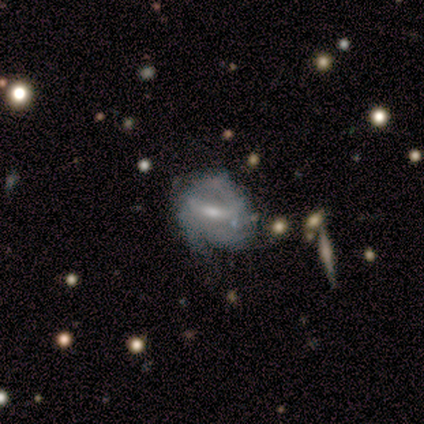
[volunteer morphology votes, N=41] Smooth or featured: featured or disk — 73% (star or artifact — 15%)
Edge-on disk: no — 93% (yes — 7%)
Bar: weak — 61% (strong — 32%)
Spiral arms: yes — 61% (no — 39%)
Spiral winding: medium — 53% (tight — 41%)
Spiral arm count: 2 — 53% (3 — 35%)
Bulge size: small — 50% (moderate — 36%)
Merging: minor disturbance — 46% (none — 34%)